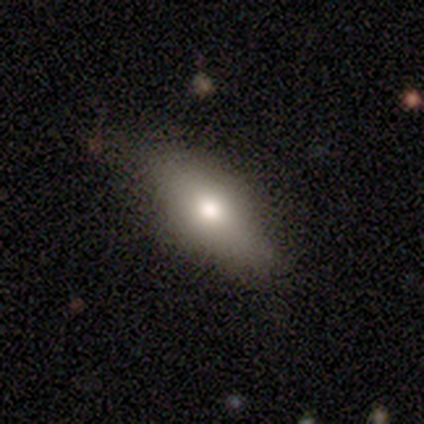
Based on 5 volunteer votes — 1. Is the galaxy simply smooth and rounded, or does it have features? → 100% smooth, 0% featured or disk, 0% star or artifact.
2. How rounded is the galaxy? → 100% in between, 0% round, 0% cigar-shaped.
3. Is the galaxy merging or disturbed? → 80% none, 20% minor disturbance, 0% major disturbance, 0% merger.